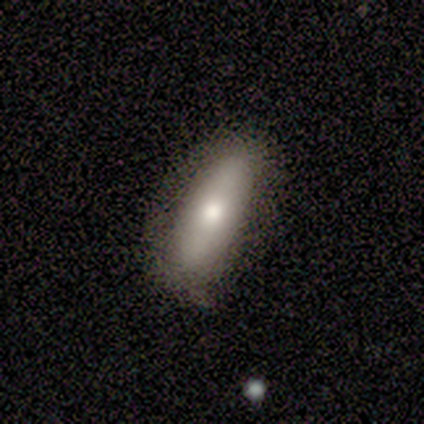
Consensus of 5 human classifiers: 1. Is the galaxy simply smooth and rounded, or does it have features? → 80% smooth, 20% featured or disk, 0% star or artifact.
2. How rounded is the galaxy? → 50% in between (tied), 50% cigar-shaped (tied), 0% round.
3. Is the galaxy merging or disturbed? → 60% none, 40% minor disturbance, 0% major disturbance, 0% merger.